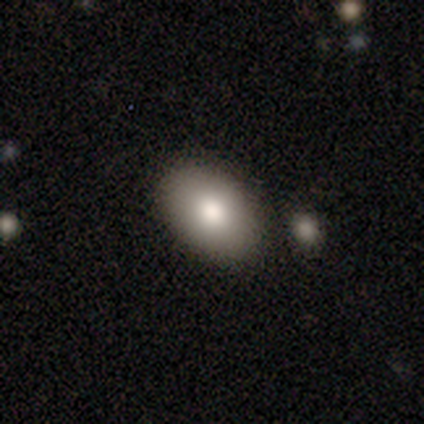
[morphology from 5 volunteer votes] Q: Smooth or featured?
A: smooth (60%); runner-up: featured or disk (40%)
Q: How rounded?
A: in between (100%)
Q: Merging?
A: none (80%); runner-up: minor disturbance (20%)